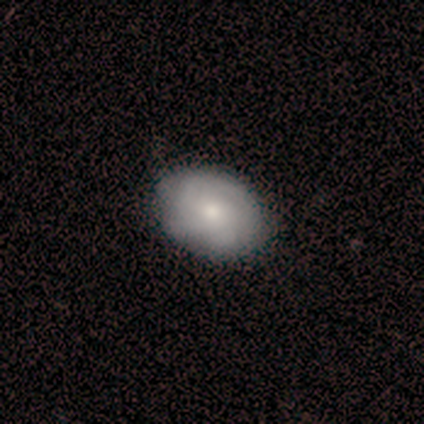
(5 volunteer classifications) A smooth galaxy with no disk features (80%) that is in between round and cigar-shaped (100%).

Vote fractions:
- Smooth or featured? smooth: 80% / featured or disk: 20% / star or artifact: 0%
- How rounded? in between: 100% / round: 0% / cigar-shaped: 0%
- Merging? none: 100% / minor disturbance: 0% / major disturbance: 0% / merger: 0%